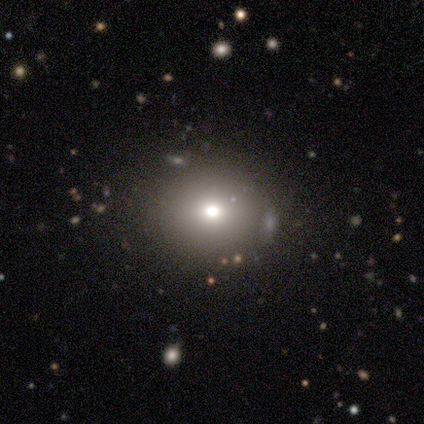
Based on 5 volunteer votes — Smooth or featured: smooth — 40% (tied with featured or disk — 40%)
How rounded: round — 50% (tied with in between — 50%)
Merging: none — 50% (minor disturbance — 25%)